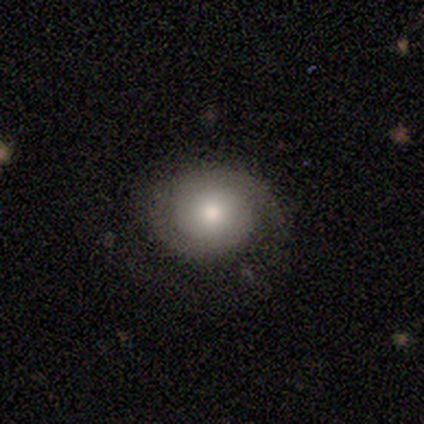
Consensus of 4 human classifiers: Smooth or featured? 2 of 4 (50%) said featured or disk. Edge-on disk? 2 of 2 (100%) said no. Bar? 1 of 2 (50%, tied with no) said weak. Spiral arms? 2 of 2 (100%) said yes. Spiral winding? 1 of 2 (50%, tied with loose) said tight. Spiral arm count? 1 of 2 (50%, tied with 2) said 1. Bulge size? 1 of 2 (50%, tied with small) said moderate. Merging? 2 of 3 (67%) said major disturbance.